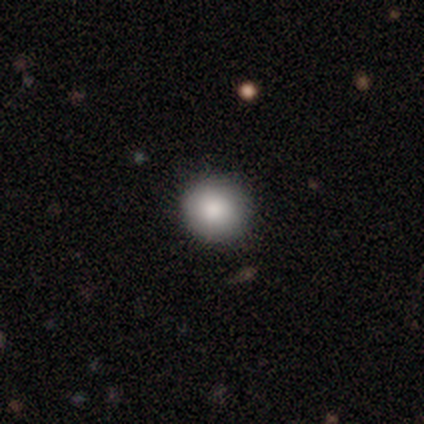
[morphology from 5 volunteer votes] smooth 100%, featured or disk 0%, star or artifact 0%. Down the decision tree: how rounded — round (80%); merging — none (80%).